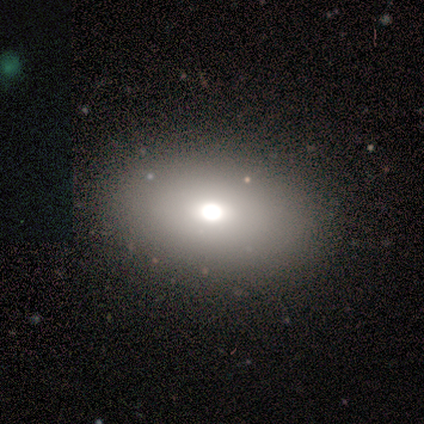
Q: Smooth or featured?
A: smooth (67%); runner-up: featured or disk (25%)
Q: How rounded?
A: in between (100%)
Q: Merging?
A: none (64%); runner-up: minor disturbance (36%)